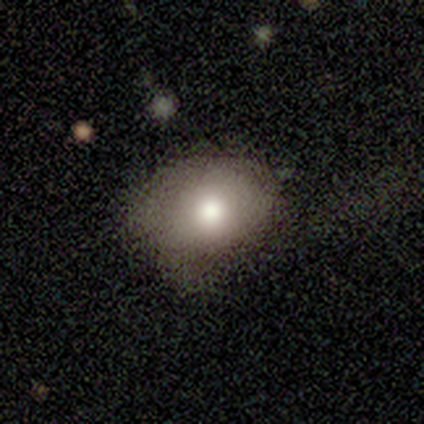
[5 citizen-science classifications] smooth-or-featured: smooth: 80% | featured or disk: 20% | star or artifact: 0%
  how-rounded: round: 50% (tied) | in between: 50% (tied) | cigar-shaped: 0%
  merging: none: 60% | major disturbance: 20% | merger: 20% | minor disturbance: 0%